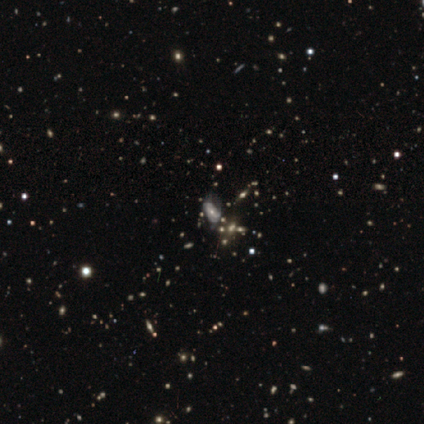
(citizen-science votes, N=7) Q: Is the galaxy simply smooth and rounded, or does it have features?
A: featured or disk — 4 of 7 (57%).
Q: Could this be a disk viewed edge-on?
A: no — 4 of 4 (100%).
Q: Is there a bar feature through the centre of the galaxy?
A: no — 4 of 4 (100%).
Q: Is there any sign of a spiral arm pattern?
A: yes — 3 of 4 (75%).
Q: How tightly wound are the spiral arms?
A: tight — 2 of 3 (67%).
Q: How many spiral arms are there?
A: can't tell — 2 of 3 (67%).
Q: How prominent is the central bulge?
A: moderate — 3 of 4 (75%).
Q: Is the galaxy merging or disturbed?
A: none — 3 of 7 (43%).